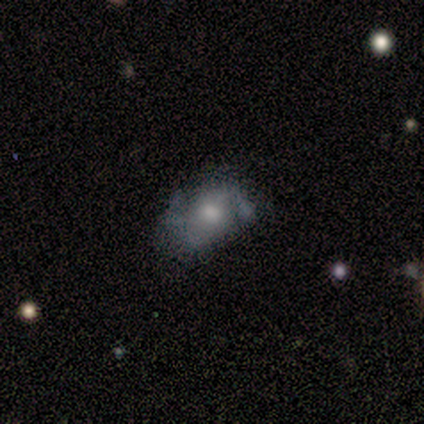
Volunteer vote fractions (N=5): This appears to be a featured or disk galaxy (100%) with no bar (100%), 2 (67%) medium (67%) spiral arms (60%) and a moderate central bulge (80%). Merging: none (80%).